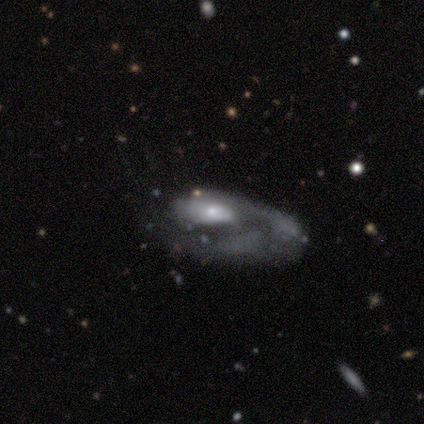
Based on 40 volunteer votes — Volunteers were most divided on "bulge size": small: 50%, moderate: 44%, large: 3%, none: 3%, dominant: 0%. Remaining: edge-on disk — no (97%); bar — no (84%); smooth or featured — featured or disk (82%); spiral arm count — 1 (75%); merging — major disturbance (72%); spiral arms — yes (62%); spiral winding — tight (45%).